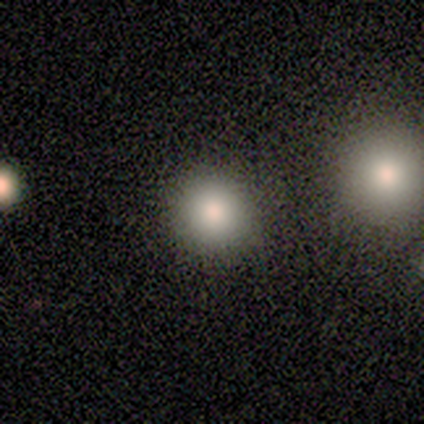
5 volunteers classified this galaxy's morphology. type=smooth (80%); roundness=round (100%); merging=none (80%).